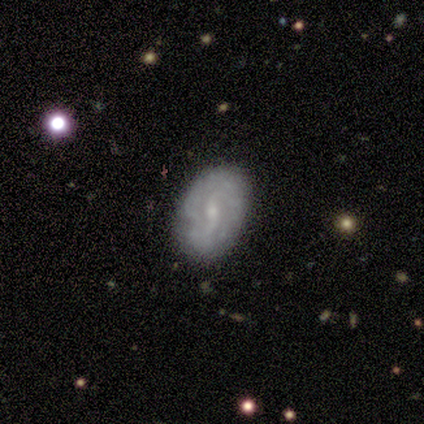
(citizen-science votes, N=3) This is likely a featured or disk galaxy (67%). It is possibly viewed edge-on (50%, tied with no). Edge-on bulge: clearly rounded (100%). Merging: likely none (67%).